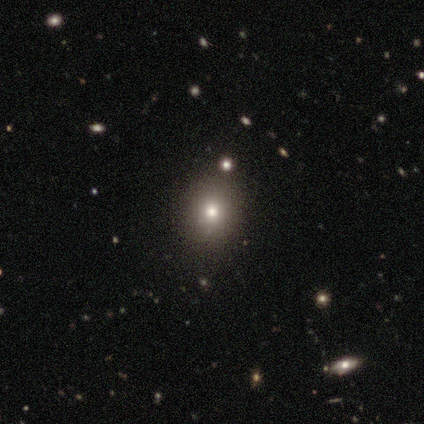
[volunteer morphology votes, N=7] Smooth or featured? 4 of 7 (57%) said smooth. How rounded? 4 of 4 (100%) said round. Merging? 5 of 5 (100%) said none.